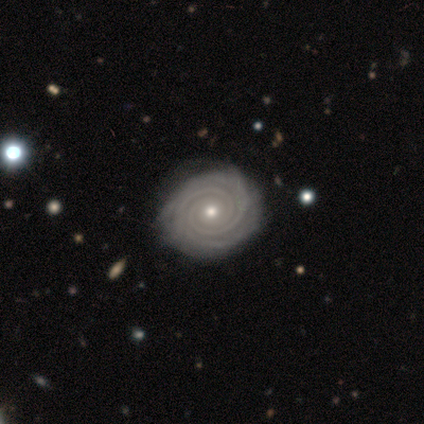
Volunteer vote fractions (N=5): smooth_or_featured: featured or disk (p=1.00)
disk_edge_on: no (p=1.00)
bar: no (p=1.00)
has_spiral_arms: yes (p=1.00)
spiral_winding: tight (p=1.00)
spiral_arm_count: 2 (p=0.40) [alt: 3 p=0.20]
bulge_size: moderate (p=0.60) [alt: small p=0.40]
merging: none (p=0.80) [alt: minor disturbance p=0.20]